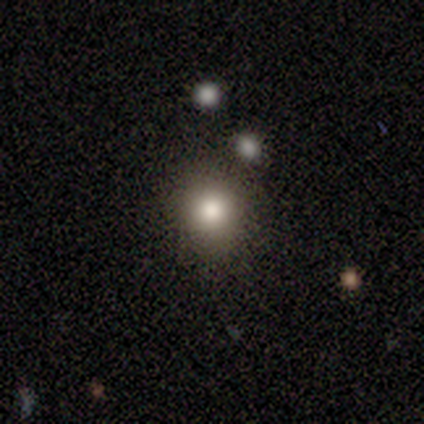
Smooth or featured: smooth — 80% (star or artifact — 20%)
How rounded: round — 100%
Merging: none — 100%